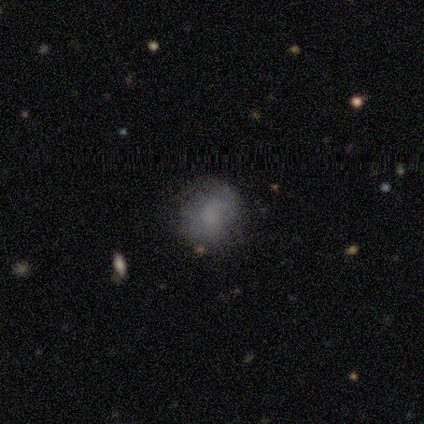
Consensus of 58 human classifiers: Smooth or featured?
  - smooth: 52% *
  - featured or disk: 31%
  - star or artifact: 17%
How rounded?
  - round: 83% *
  - in between: 17%
  - cigar-shaped: 0%
Merging?
  - none: 69% *
  - minor disturbance: 23%
  - merger: 6%
  - major disturbance: 2%